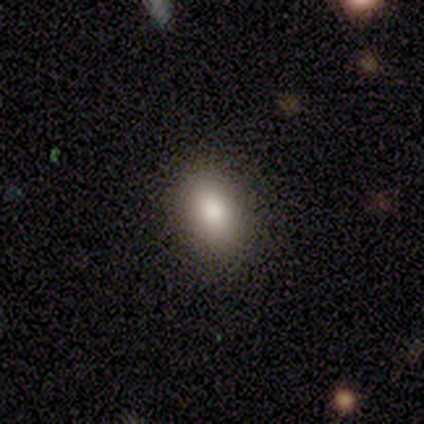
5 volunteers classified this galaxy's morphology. Smooth or featured? 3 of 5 (60%) said smooth. How rounded? 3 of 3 (100%) said in between. Merging? 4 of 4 (100%) said none.